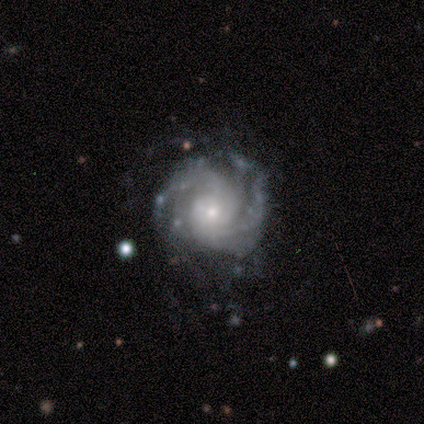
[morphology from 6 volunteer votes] smooth_or_featured: featured or disk (p=1.00)
disk_edge_on: no (p=1.00)
bar: no (p=0.83) [alt: weak p=0.17]
has_spiral_arms: yes (p=1.00)
spiral_winding: tight (p=0.83) [alt: medium p=0.17]
spiral_arm_count: 2 (p=0.33) [tied with: can't tell p=0.33]
bulge_size: moderate (p=0.50) [tied with: small p=0.50]
merging: none (p=0.33) [tied with: minor disturbance p=0.33]